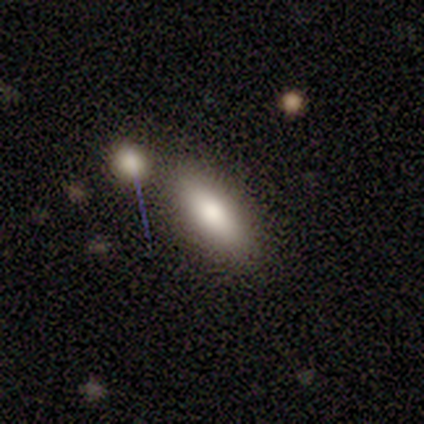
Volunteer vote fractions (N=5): smooth_or_featured: smooth (p=0.80) [alt: star or artifact p=0.20]
how_rounded: in between (p=1.00)
merging: none (p=0.75) [alt: merger p=0.25]